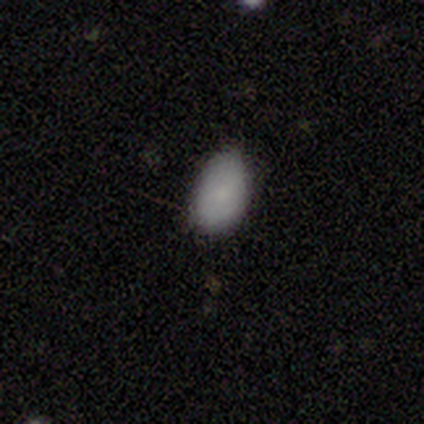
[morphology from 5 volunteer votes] This appears to be a smooth galaxy with no disk features (60%) that is in between round and cigar-shaped (100%). Merging: none (60%).